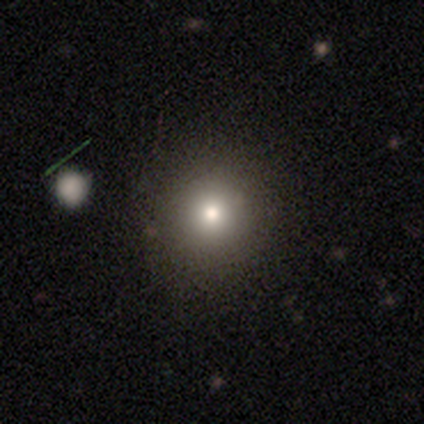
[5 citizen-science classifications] Smooth or featured: smooth — 100%
How rounded: round — 80% (in between — 20%)
Merging: none — 80% (minor disturbance — 20%)